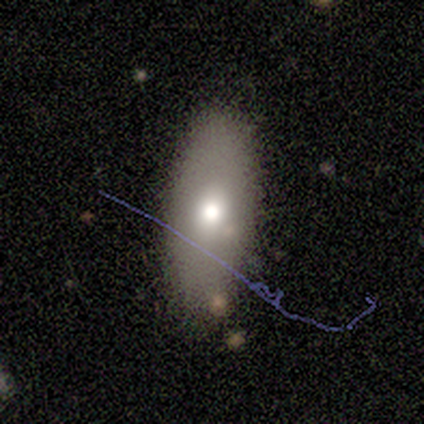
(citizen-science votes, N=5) Q: Smooth or featured?
A: smooth (80%); runner-up: featured or disk (20%)
Q: How rounded?
A: in between (100%)
Q: Merging?
A: none (100%)